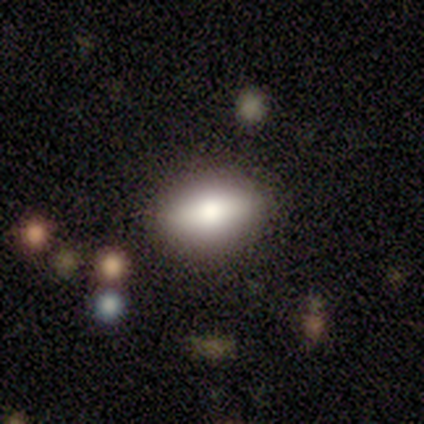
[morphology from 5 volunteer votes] A smooth galaxy with no disk features (80%) that is cigar-shaped (50%).

Vote fractions:
- Smooth or featured? smooth: 80% / featured or disk: 20% / star or artifact: 0%
- How rounded? cigar-shaped: 50% / round: 25% / in between: 25%
- Merging? none: 100% / minor disturbance: 0% / major disturbance: 0% / merger: 0%